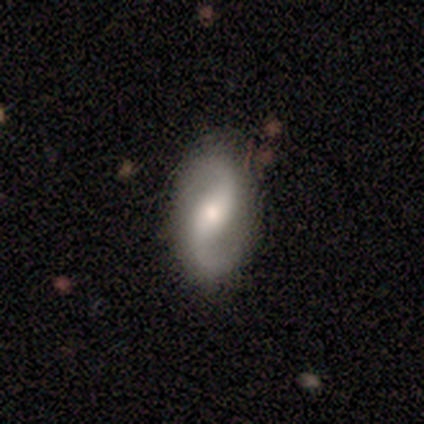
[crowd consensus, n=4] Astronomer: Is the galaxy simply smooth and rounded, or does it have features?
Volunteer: featured or disk — 100%.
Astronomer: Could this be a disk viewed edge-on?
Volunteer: no — 100%.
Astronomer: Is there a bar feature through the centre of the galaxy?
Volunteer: weak — 50%, tied with no at 50%.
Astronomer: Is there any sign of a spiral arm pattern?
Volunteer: yes — 100%.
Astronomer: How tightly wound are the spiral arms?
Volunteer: loose — 75%.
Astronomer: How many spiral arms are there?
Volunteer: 2 — 100%.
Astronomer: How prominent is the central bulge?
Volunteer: small — 75%.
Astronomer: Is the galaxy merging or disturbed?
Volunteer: none — 75%.